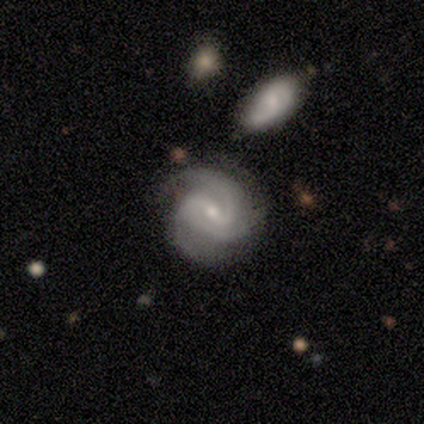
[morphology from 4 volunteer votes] Q: Smooth or featured?
A: featured or disk (100%)
Q: Edge-on disk?
A: no (100%)
Q: Bar?
A: no (50%); runner-up: strong (25%)
Q: Spiral arms?
A: yes (100%)
Q: Spiral winding?
A: tight (75%); runner-up: medium (25%)
Q: Spiral arm count?
A: 2 (50%); tied with: 3 (50%)
Q: Bulge size?
A: small (75%); runner-up: moderate (25%)
Q: Merging?
A: none (50%); tied with: minor disturbance (50%)